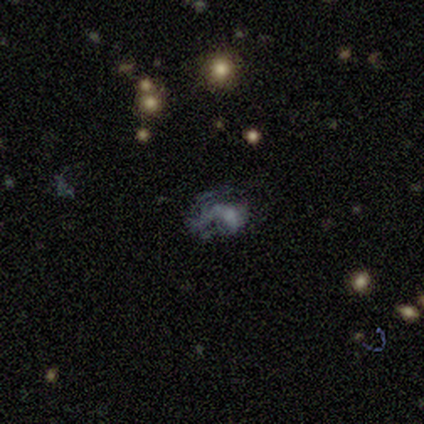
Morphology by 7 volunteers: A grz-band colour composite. It shows a star or artifact, not a galaxy (43%).